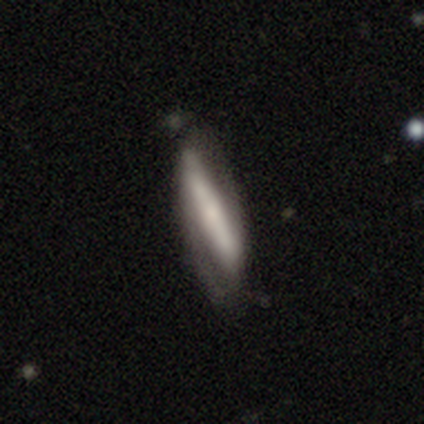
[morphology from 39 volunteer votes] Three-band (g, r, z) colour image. It shows a featured or disk galaxy (64%) with a strong bar (94%), 2 (100%) medium (55%) spiral arms (61%) and a small central bulge (39%). Merging: none (65%).